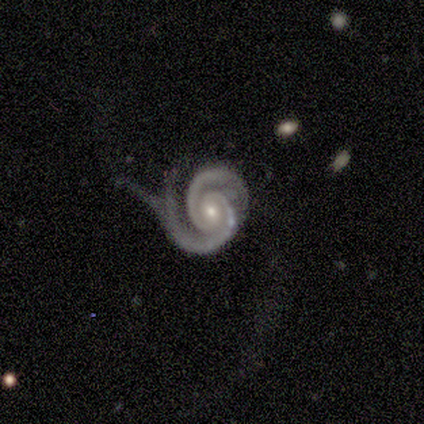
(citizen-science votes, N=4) featured or disk 100%, smooth 0%, star or artifact 0%. Down the decision tree: edge-on disk — no (100%); bar — no (75%); spiral arms — yes (100%); spiral arm count — 2 (75%); spiral winding — tight (50%, tied with medium); bulge size — small (75%); merging — major disturbance (50%).